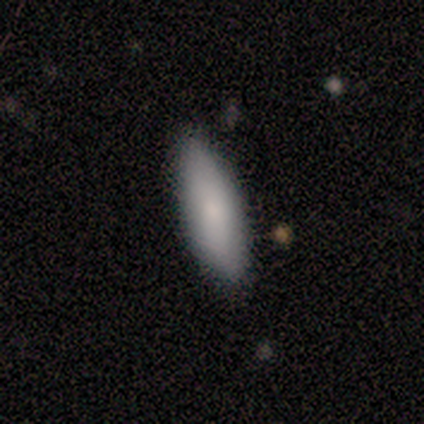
Overall: smooth (60%; star or artifact 40%). How rounded: in between (67%; cigar-shaped 33%). Merging: none (100%).